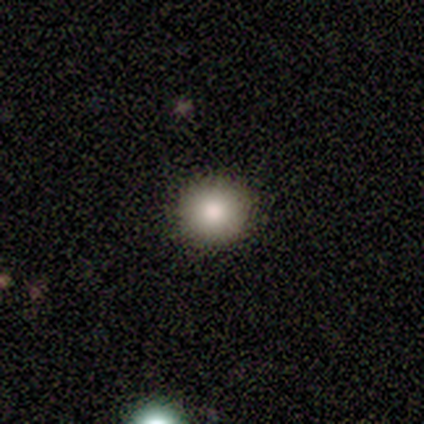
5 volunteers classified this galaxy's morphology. Q: Smooth or featured?
A: smooth (80%); runner-up: star or artifact (20%)
Q: How rounded?
A: round (75%); runner-up: in between (25%)
Q: Merging?
A: none (100%)